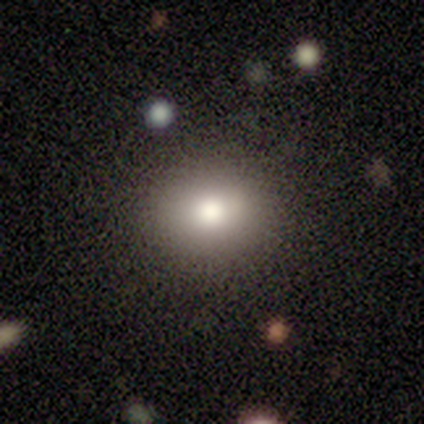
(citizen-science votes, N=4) Smooth or featured?
  - smooth: 100% *
  - featured or disk: 0%
  - star or artifact: 0%
How rounded?
  - round: 75% *
  - in between: 25%
  - cigar-shaped: 0%
Merging?
  - none: 75% *
  - major disturbance: 25%
  - minor disturbance: 0%
  - merger: 0%